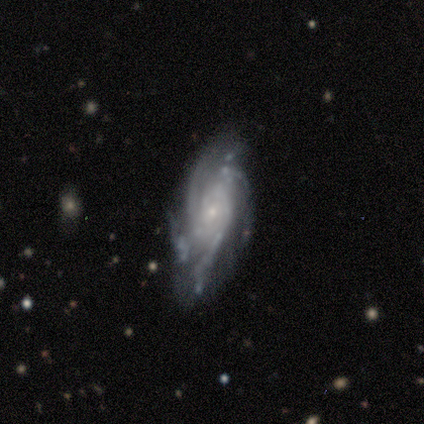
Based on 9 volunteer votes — This is likely a featured or disk galaxy (78%). It is clearly not viewed edge-on (100%). Bar: clearly no (100%). Spiral arm pattern: clearly yes (86%). Spiral arm count: possibly 4 (50%). Spiral winding: likely tight (67%). Central bulge: clearly small (100%). Merging: possibly none (57%).